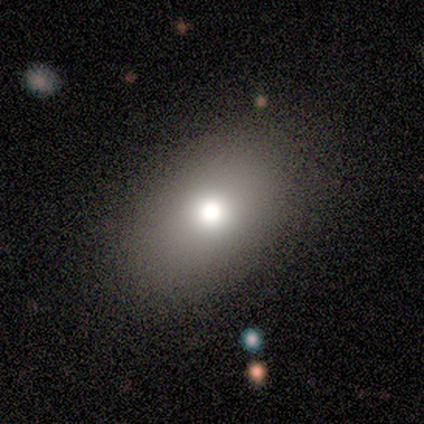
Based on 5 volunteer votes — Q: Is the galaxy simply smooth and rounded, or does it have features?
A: smooth — 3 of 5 (60%).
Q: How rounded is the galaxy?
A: in between — 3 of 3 (100%).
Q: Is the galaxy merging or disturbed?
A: none — 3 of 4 (75%).